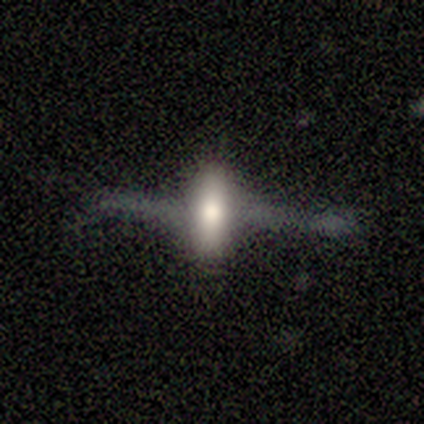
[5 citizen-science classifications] This appears to be a featured or disk galaxy (80%) viewed edge-on (75%) with a rounded central bulge (100%). Merging: none (60%).